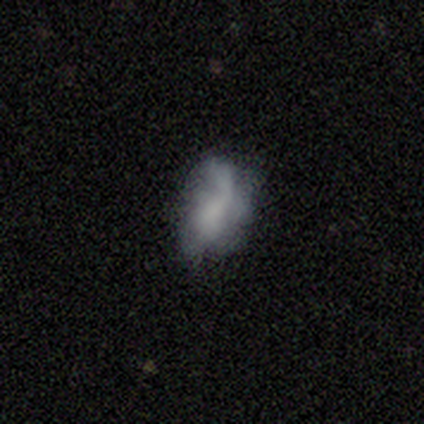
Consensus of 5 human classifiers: Q: Smooth or featured?
A: featured or disk (60%); runner-up: smooth (40%)
Q: Edge-on disk?
A: no (67%); runner-up: yes (33%)
Q: Bar?
A: no (100%)
Q: Spiral arms?
A: yes (50%); tied with: no (50%)
Q: Spiral winding?
A: loose (100%)
Q: Spiral arm count?
A: 1 (100%)
Q: Bulge size?
A: none (100%)
Q: Merging?
A: minor disturbance (40%); runner-up: none (20%)